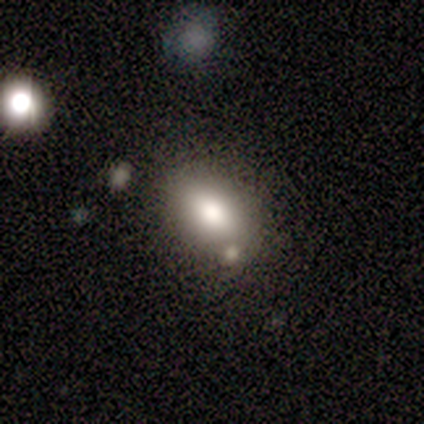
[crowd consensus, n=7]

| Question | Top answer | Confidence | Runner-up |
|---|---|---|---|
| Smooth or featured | smooth | 86% | featured or disk (14%) |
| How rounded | in between | 83% | round (17%) |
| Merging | none | 100% | — |